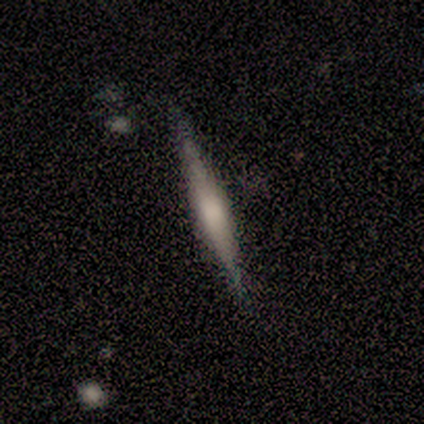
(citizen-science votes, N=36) smooth_or_featured: featured or disk (p=0.61) [alt: smooth p=0.36]
disk_edge_on: yes (p=0.95) [alt: no p=0.05]
edge_on_bulge: rounded (p=0.57) [alt: boxy p=0.29]
merging: none (p=0.86) [alt: minor disturbance p=0.14]